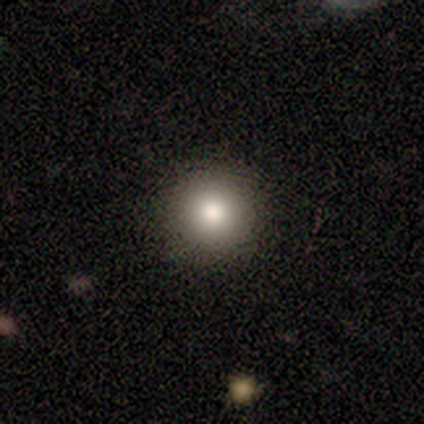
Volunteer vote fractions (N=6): Morphology: type=smooth (100%); roundness=round (100%); merging=none (100%).